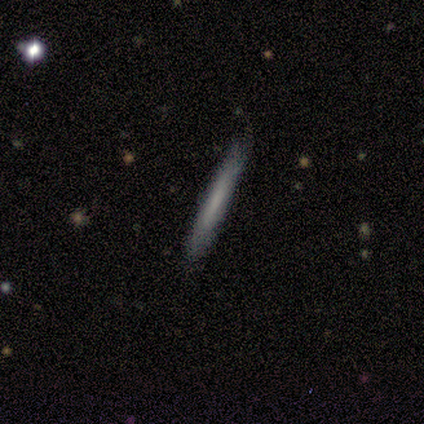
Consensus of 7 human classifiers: Smooth or featured? smooth (71%)
How rounded? cigar-shaped (100%)
Merging? none (100%)